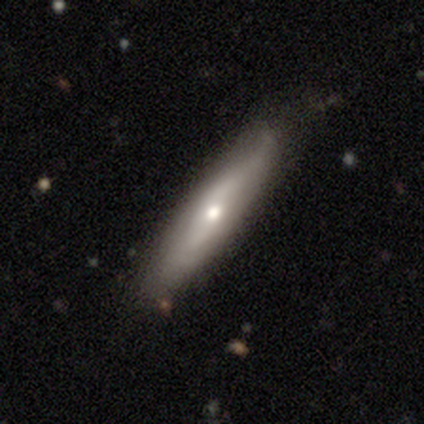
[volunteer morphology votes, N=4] Smooth or featured?
  - smooth: 50% * (tied)
  - featured or disk: 50% * (tied)
  - star or artifact: 0%
How rounded?
  - cigar-shaped: 100% *
  - round: 0%
  - in between: 0%
Merging?
  - none: 50% * (tied)
  - minor disturbance: 50% * (tied)
  - major disturbance: 0%
  - merger: 0%